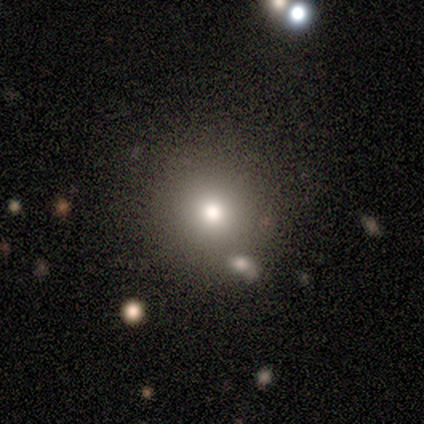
Smooth or featured? smooth (80%)
How rounded? round (100%)
Merging? none (100%)